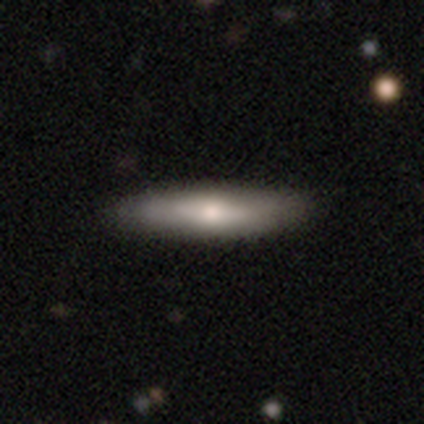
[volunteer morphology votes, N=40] This appears to be a smooth galaxy with no disk features (60%) that is cigar-shaped (79%). Merging: none (68%).